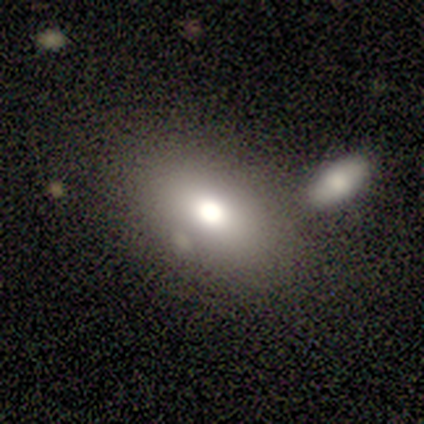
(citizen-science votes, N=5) A smooth galaxy with no disk features (80%) that is round (50%, tied with in between).

Vote fractions:
- Smooth or featured? smooth: 80% / featured or disk: 20% / star or artifact: 0%
- How rounded? round: 50% (tied) / in between: 50% (tied) / cigar-shaped: 0%
- Merging? none: 40% (tied) / merger: 40% (tied) / minor disturbance: 20% / major disturbance: 0%